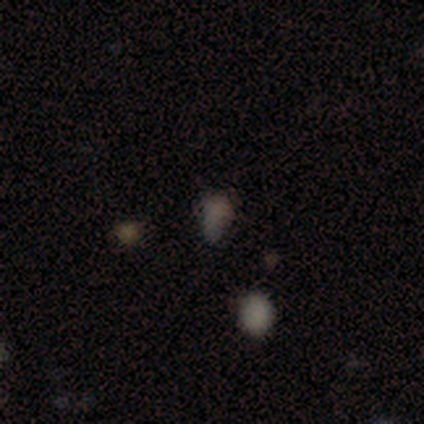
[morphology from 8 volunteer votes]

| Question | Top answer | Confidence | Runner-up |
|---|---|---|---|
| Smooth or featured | smooth | 75% | star or artifact (25%) |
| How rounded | in between | 83% | round (17%) |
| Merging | none | 33% | tied: minor disturbance (33%), major disturbance (33%) |